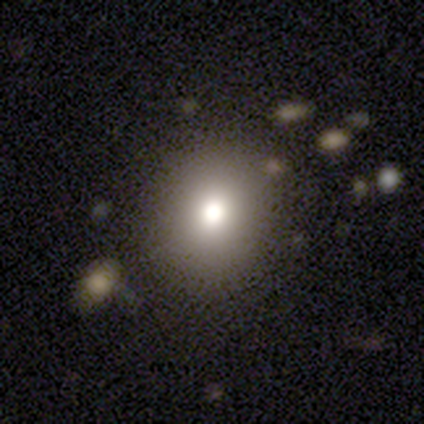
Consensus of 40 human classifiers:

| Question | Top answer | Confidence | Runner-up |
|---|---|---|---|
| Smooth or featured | smooth | 65% | featured or disk (20%) |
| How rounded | round | 77% | in between (19%) |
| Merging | none | 82% | minor disturbance (9%) |